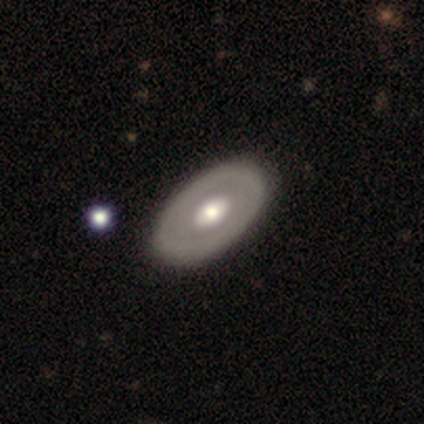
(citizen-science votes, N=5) Volunteers were most divided on "bulge size" (2-way tie): large: 50%, moderate: 50%, dominant: 0%, small: 0%, none: 0%. More confident: edge-on disk — no (100%); bar — no (100%); spiral arms — no (100%); smooth or featured — featured or disk (80%); merging — none (75%).